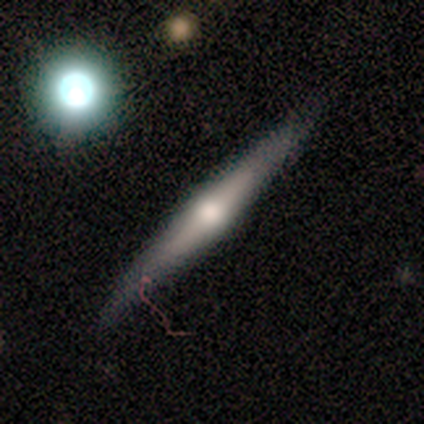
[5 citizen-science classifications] Volunteers were most divided on "edge-on bulge": rounded: 67%, boxy: 33%, none: 0%. More confident: edge-on disk — yes (100%); merging — none (100%); smooth or featured — featured or disk (60%).